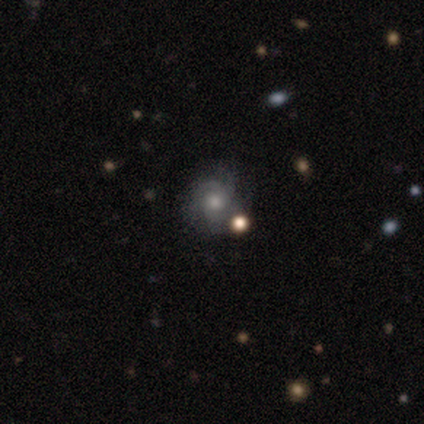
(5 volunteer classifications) Smooth or featured?
  - featured or disk: 60% *
  - smooth: 20%
  - star or artifact: 20%
Edge-on disk?
  - no: 100% *
  - yes: 0%
Bar?
  - no: 100% *
  - strong: 0%
  - weak: 0%
Spiral arms?
  - yes: 100% *
  - no: 0%
Spiral winding?
  - medium: 67% *
  - tight: 33%
  - loose: 0%
Spiral arm count?
  - can't tell: 67% *
  - 3: 33%
  - 1: 0%
  - 2: 0%
  - 4: 0%
  - more than 4: 0%
Bulge size?
  - moderate: 100% *
  - dominant: 0%
  - large: 0%
  - small: 0%
  - none: 0%
Merging?
  - none: 75% *
  - minor disturbance: 25%
  - major disturbance: 0%
  - merger: 0%